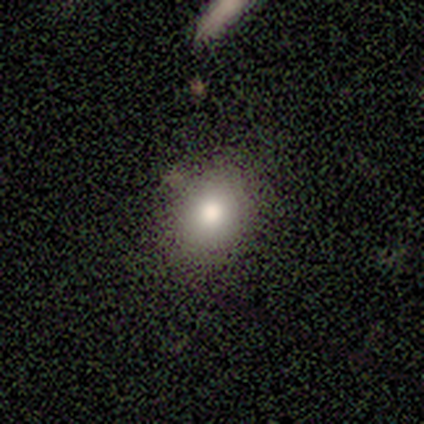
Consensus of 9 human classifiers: Q: Smooth or featured?
A: smooth (89%); runner-up: star or artifact (11%)
Q: How rounded?
A: in between (62%); runner-up: round (25%)
Q: Merging?
A: none (75%); runner-up: minor disturbance (25%)